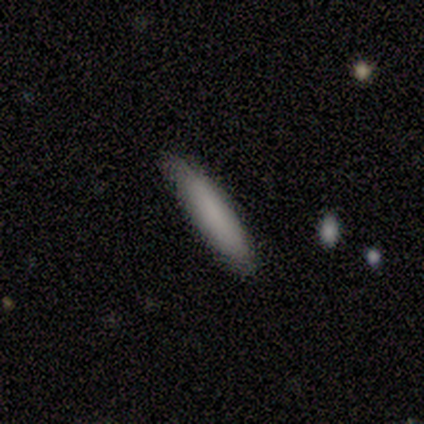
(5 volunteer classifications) Volunteers were most divided on "how rounded": cigar-shaped: 80%, in between: 20%, round: 0%. More confident: smooth or featured — smooth (100%); merging — none (80%).